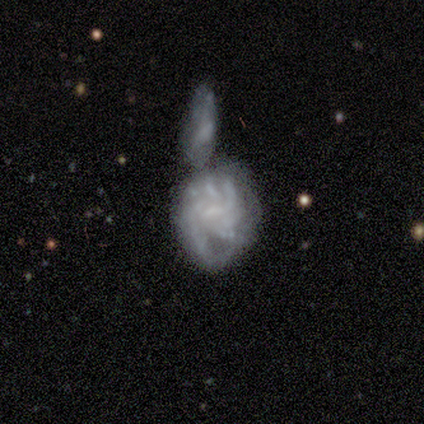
A featured or disk galaxy (80%) with no bar (50%), no spiral arms (75%) and no central bulge (50%).

Vote fractions:
- Smooth or featured? featured or disk: 80% / smooth: 20% / star or artifact: 0%
- Edge-on disk? no: 100% / yes: 0%
- Bar? no: 50% / strong: 25% / weak: 25%
- Spiral arms? no: 75% / yes: 25%
- Bulge size? none: 50% / moderate: 25% / small: 25% / dominant: 0% / large: 0%
- Merging? minor disturbance: 40% / none: 20% / major disturbance: 20% / merger: 20%